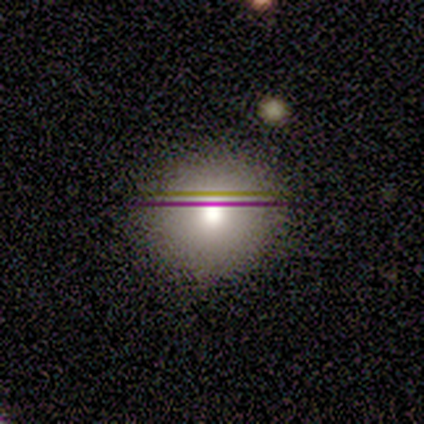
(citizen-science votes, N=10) Smooth or featured: smooth — 100%
How rounded: round — 100%
Merging: none — 100%